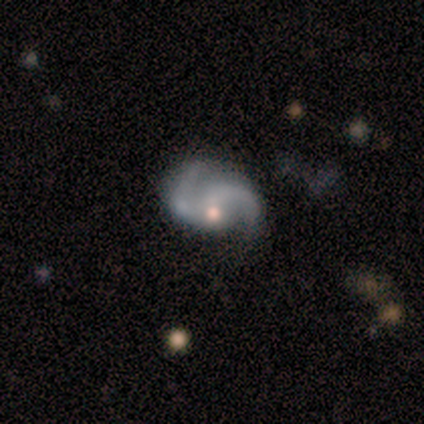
Smooth or featured: featured or disk — 100%
Edge-on disk: no — 100%
Bar: no — 100%
Spiral arms: yes — 80% (no — 20%)
Spiral winding: tight — 50% (medium — 25%)
Spiral arm count: 2 — 100%
Bulge size: none — 60% (small — 40%)
Merging: none — 60% (major disturbance — 40%)